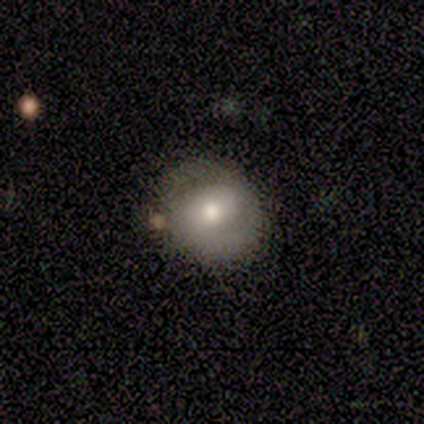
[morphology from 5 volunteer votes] smooth 80%, featured or disk 20%, star or artifact 0%. Down the decision tree: how rounded — round (100%); merging — none (100%).